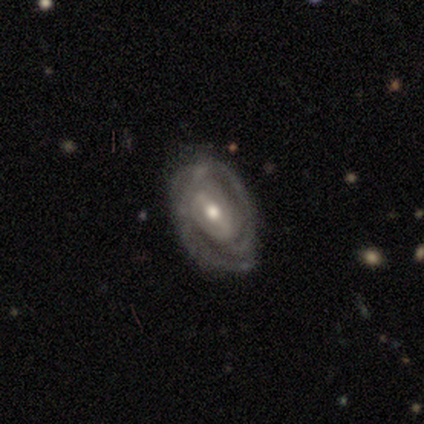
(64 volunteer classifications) Volunteers were most divided on "bar": weak: 44%, strong: 35%, no: 21%. Remaining: edge-on disk — no (95%); smooth or featured — featured or disk (86%); spiral arms — yes (79%); bulge size — moderate (77%); spiral winding — tight (71%); merging — none (70%); spiral arm count — 2 (49%).